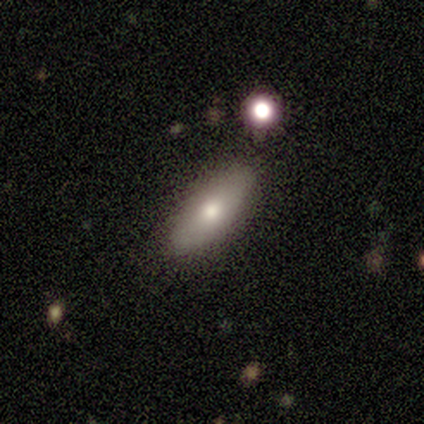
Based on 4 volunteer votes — A smooth galaxy with no disk features (75%) that is in between round and cigar-shaped (100%).

Vote fractions:
- Smooth or featured? smooth: 75% / star or artifact: 25% / featured or disk: 0%
- How rounded? in between: 100% / round: 0% / cigar-shaped: 0%
- Merging? none: 100% / minor disturbance: 0% / major disturbance: 0% / merger: 0%